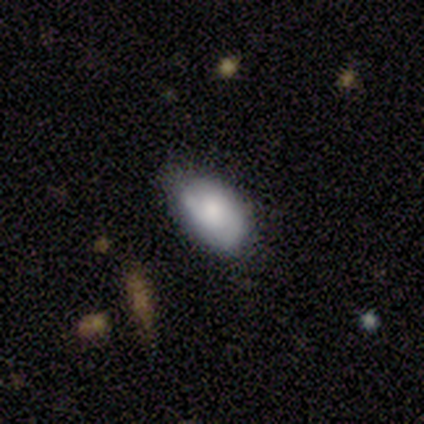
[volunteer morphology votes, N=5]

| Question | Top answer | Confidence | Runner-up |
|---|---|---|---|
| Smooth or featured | smooth | 100% | — |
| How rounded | in between | 100% | — |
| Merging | none | 80% | minor disturbance (20%) |